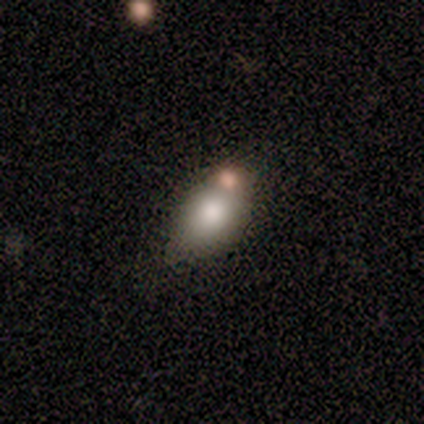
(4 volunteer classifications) Smooth or featured? featured or disk (75%)
Edge-on disk? no (67%)
Bar? no (100%)
Spiral arms? no (100%)
Bulge size? large (50%, tied with none)
Merging? minor disturbance (75%)